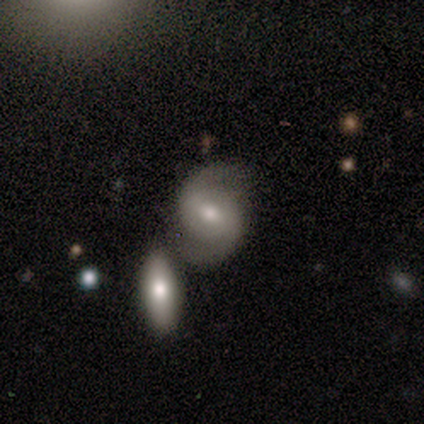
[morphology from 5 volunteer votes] Smooth or featured?
  - featured or disk: 100% *
  - smooth: 0%
  - star or artifact: 0%
Edge-on disk?
  - no: 100% *
  - yes: 0%
Bar?
  - weak: 100% *
  - strong: 0%
  - no: 0%
Spiral arms?
  - yes: 100% *
  - no: 0%
Spiral winding?
  - loose: 80% *
  - tight: 20%
  - medium: 0%
Spiral arm count?
  - 2: 100% *
  - 1: 0%
  - 3: 0%
  - 4: 0%
  - more than 4: 0%
  - can't tell: 0%
Bulge size?
  - moderate: 100% *
  - dominant: 0%
  - large: 0%
  - small: 0%
  - none: 0%
Merging?
  - none: 60% *
  - major disturbance: 20%
  - merger: 20%
  - minor disturbance: 0%